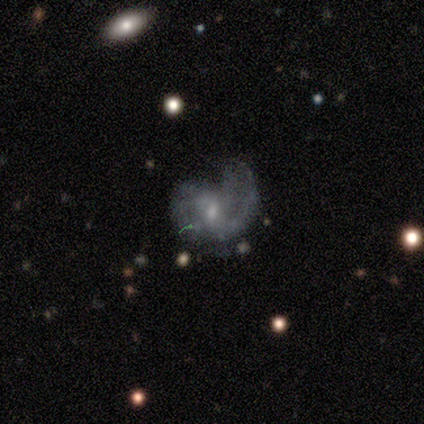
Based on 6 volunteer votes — smooth-or-featured: featured or disk: 67% | smooth: 33% | star or artifact: 0%
  disk-edge-on: no: 100% | yes: 0%
    bar: weak: 100% | strong: 0% | no: 0%
    has-spiral-arms: yes: 100% | no: 0%
      spiral-winding: tight: 50% | medium: 25% | loose: 25%
      spiral-arm-count: 2: 75% | 1: 25% | 3: 0% | 4: 0% | more than 4: 0% | can't tell: 0%
    bulge-size: moderate: 50% (tied) | small: 50% (tied) | dominant: 0% | large: 0% | none: 0%
  merging: none: 50% (tied) | major disturbance: 50% (tied) | minor disturbance: 0% | merger: 0%